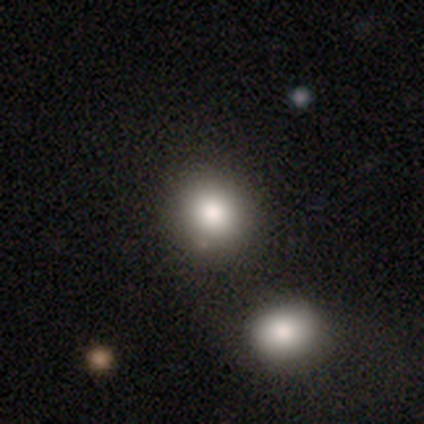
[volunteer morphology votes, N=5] Smooth or featured? smooth (60%)
How rounded? round (100%)
Merging? none (67%)